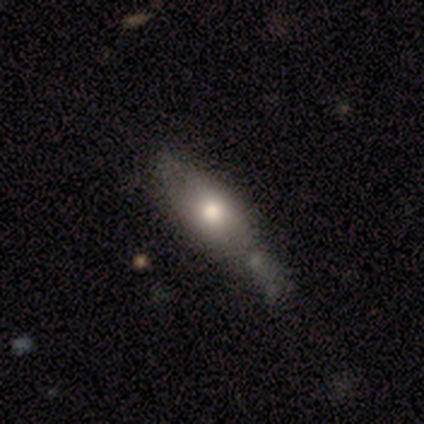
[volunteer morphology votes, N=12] Smooth or featured: smooth — 67% (featured or disk — 25%)
How rounded: in between — 62% (cigar-shaped — 25%)
Merging: none — 36% (minor disturbance — 27%)